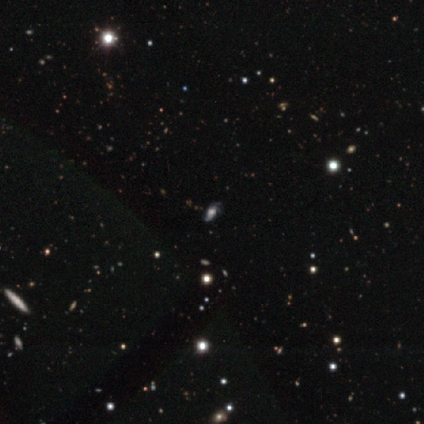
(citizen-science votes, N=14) Smooth or featured?
  - featured or disk: 50% *
  - star or artifact: 43%
  - smooth: 7%
Edge-on disk?
  - no: 100% *
  - yes: 0%
Bar?
  - no: 86% *
  - weak: 14%
  - strong: 0%
Spiral arms?
  - yes: 86% *
  - no: 14%
Spiral winding?
  - loose: 83% *
  - tight: 17%
  - medium: 0%
Spiral arm count?
  - 2: 83% *
  - 3: 17%
  - 1: 0%
  - 4: 0%
  - more than 4: 0%
  - can't tell: 0%
Bulge size?
  - moderate: 71% *
  - dominant: 14%
  - large: 14%
  - small: 0%
  - none: 0%
Merging?
  - none: 62% *
  - major disturbance: 25%
  - minor disturbance: 12%
  - merger: 0%